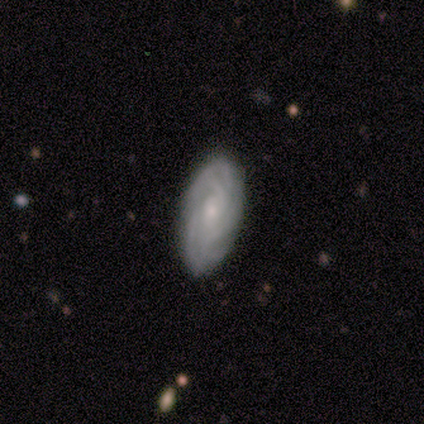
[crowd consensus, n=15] featured or disk 80%, smooth 20%, star or artifact 0%. Down the decision tree: edge-on disk — no (100%); bar — no (75%); spiral arms — yes (100%); spiral arm count — 4 (67%); spiral winding — tight (100%); bulge size — small (58%); merging — none (93%).